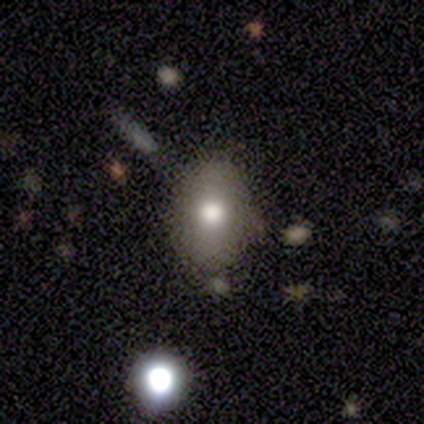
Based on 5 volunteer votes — Morphology: type=smooth (80%); roundness=in between (75%); merging=none (75%).